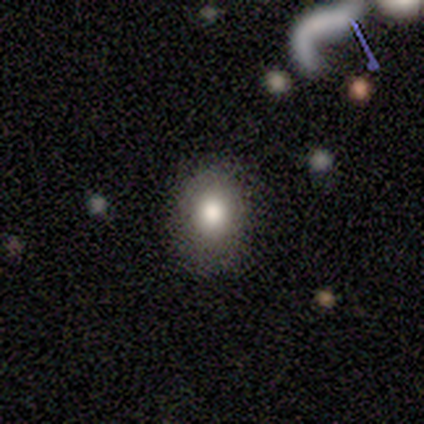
Morphology: type=smooth (50%, tied with star or artifact); roundness=in between (100%); merging=none (50%, tied with minor disturbance).